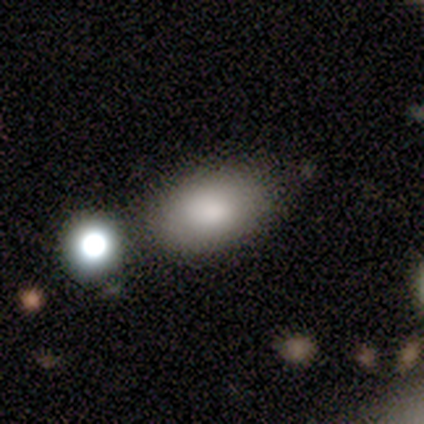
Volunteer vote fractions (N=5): Morphology: type=smooth (60%); roundness=in between (100%); merging=none (67%).